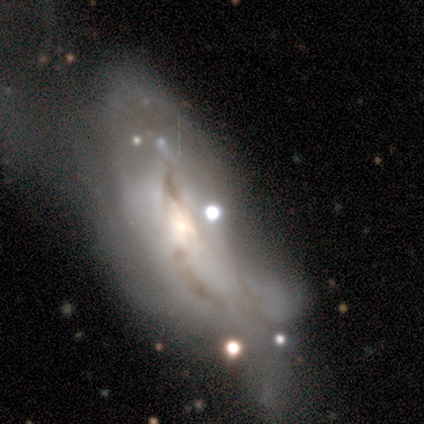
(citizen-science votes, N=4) This is likely a star or artifact rather than a galaxy (75%).